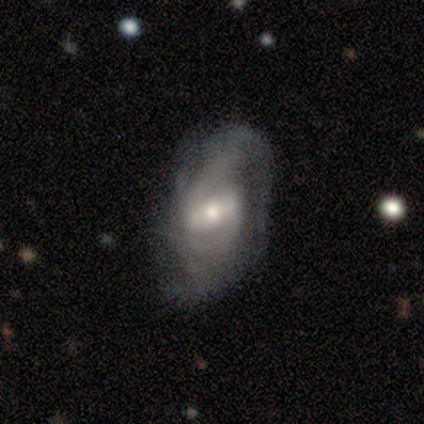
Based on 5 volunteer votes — featured or disk 80%, smooth 20%, star or artifact 0%. Down the decision tree: edge-on disk — no (75%); bar — strong (100%); spiral arms — yes (100%); spiral arm count — 2 (100%); spiral winding — medium (100%); bulge size — moderate (100%); merging — major disturbance (60%).